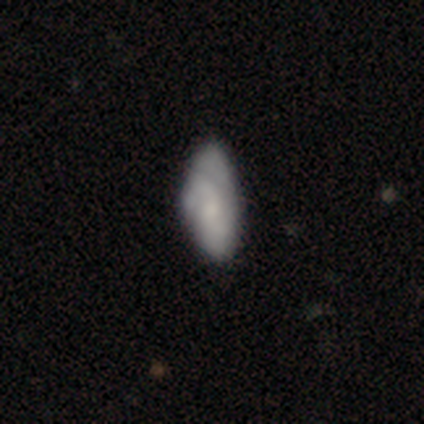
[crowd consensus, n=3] Q: Smooth or featured?
A: featured or disk (67%); runner-up: smooth (33%)
Q: Edge-on disk?
A: yes (50%); tied with: no (50%)
Q: Edge-on bulge?
A: rounded (100%)
Q: Merging?
A: minor disturbance (67%); runner-up: none (33%)